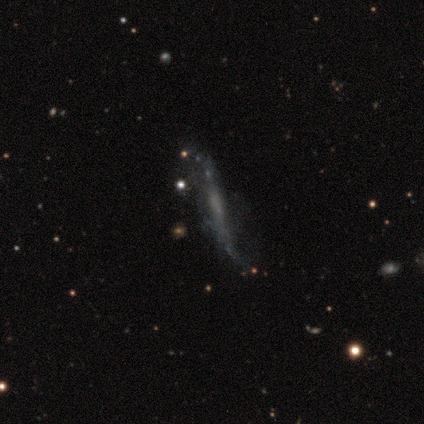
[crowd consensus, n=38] Smooth or featured?
  - featured or disk: 71% *
  - smooth: 18%
  - star or artifact: 11%
Edge-on disk?
  - yes: 63% *
  - no: 37%
Edge-on bulge?
  - none: 88% *
  - boxy: 6%
  - rounded: 6%
Merging?
  - minor disturbance: 35% *
  - none: 29%
  - major disturbance: 21%
  - merger: 15%